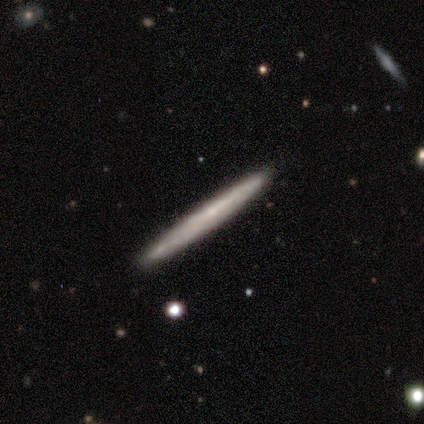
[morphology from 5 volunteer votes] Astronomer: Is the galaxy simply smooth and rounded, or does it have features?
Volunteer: smooth — 40%, tied with featured or disk at 40%.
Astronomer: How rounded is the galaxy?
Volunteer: cigar-shaped — 100%.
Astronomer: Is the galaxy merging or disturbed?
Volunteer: none — 75%.